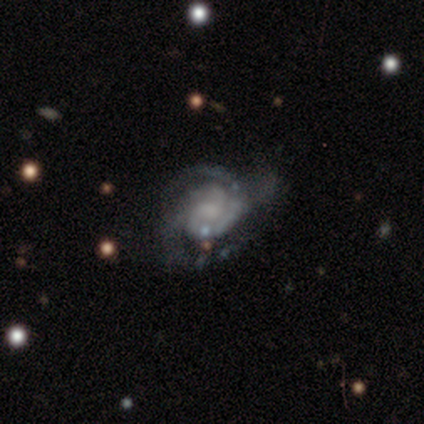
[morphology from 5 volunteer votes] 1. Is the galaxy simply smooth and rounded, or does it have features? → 80% featured or disk, 20% smooth, 0% star or artifact.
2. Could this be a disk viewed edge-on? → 100% no, 0% yes.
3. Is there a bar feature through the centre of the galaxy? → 75% no, 25% weak, 0% strong.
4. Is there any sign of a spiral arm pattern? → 100% yes, 0% no.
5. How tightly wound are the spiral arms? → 75% tight, 25% medium, 0% loose.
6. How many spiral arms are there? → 75% 2, 25% can't tell, 0% 1, 0% 3, 0% 4, 0% more than 4.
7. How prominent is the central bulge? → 50% small (tied), 50% none (tied), 0% dominant, 0% large, 0% moderate.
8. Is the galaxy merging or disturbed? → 40% none (tied), 40% major disturbance (tied), 20% minor disturbance, 0% merger.